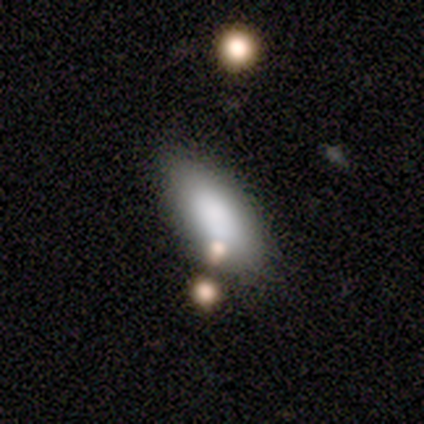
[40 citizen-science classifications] This is clearly a smooth galaxy (82%). How rounded: clearly in between (85%). Merging: clearly none (84%).